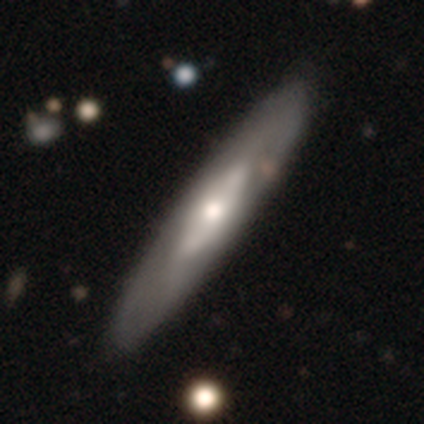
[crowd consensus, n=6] Smooth or featured?
  - featured or disk: 100% *
  - smooth: 0%
  - star or artifact: 0%
Edge-on disk?
  - no: 67% *
  - yes: 33%
Bar?
  - no: 75% *
  - strong: 25%
  - weak: 0%
Spiral arms?
  - no: 75% *
  - yes: 25%
Bulge size?
  - large: 50% *
  - moderate: 25%
  - small: 25%
  - dominant: 0%
  - none: 0%
Merging?
  - none: 67% *
  - minor disturbance: 33%
  - major disturbance: 0%
  - merger: 0%